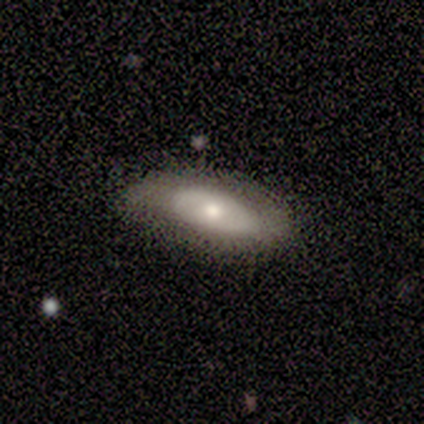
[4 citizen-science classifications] Volunteers were most divided on "spiral arm count" (2-way tie): 1: 50%, 2: 50%, 3: 0%, 4: 0%, more than 4: 0%, can't tell: 0%. More confident: edge-on disk — no (100%); spiral winding — loose (100%); merging — none (100%); smooth or featured — featured or disk (75%); bar — no (67%); spiral arms — yes (67%); bulge size — moderate (67%).